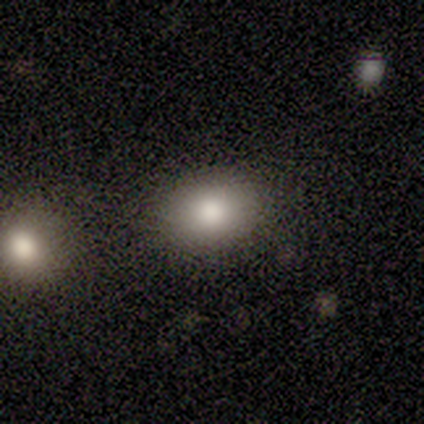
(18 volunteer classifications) smooth_or_featured: smooth (p=0.83) [alt: star or artifact p=0.11]
how_rounded: in between (p=0.53) [alt: round p=0.47]
merging: none (p=0.88) [alt: minor disturbance p=0.06]